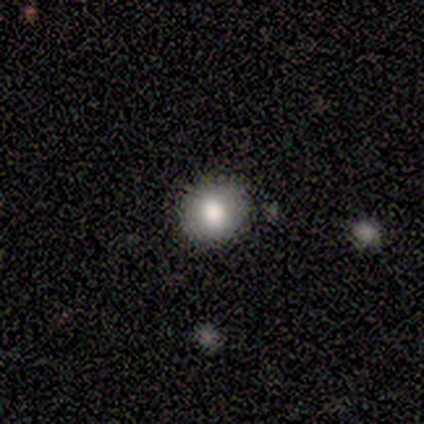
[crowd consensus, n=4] This appears to be a smooth galaxy with no disk features (100%) that is round (75%). Merging: none (100%).